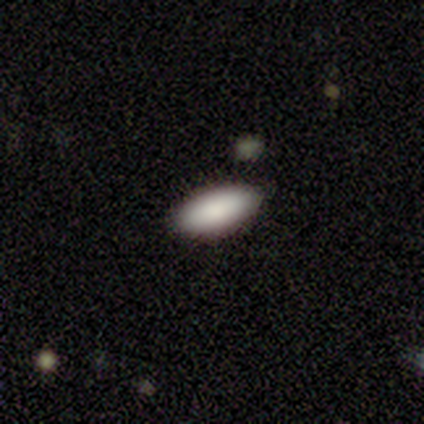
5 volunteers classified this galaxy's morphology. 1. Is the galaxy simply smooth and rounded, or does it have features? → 100% smooth, 0% featured or disk, 0% star or artifact.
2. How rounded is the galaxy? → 100% in between, 0% round, 0% cigar-shaped.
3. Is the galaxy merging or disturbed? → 60% none, 40% minor disturbance, 0% major disturbance, 0% merger.